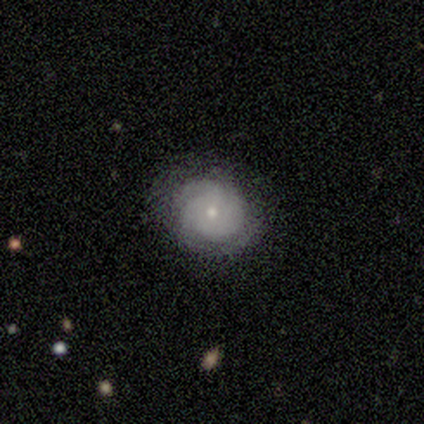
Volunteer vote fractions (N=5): Smooth or featured?
  - smooth: 40% * (tied)
  - featured or disk: 40% * (tied)
  - star or artifact: 20%
How rounded?
  - round: 50% * (tied)
  - in between: 50% * (tied)
  - cigar-shaped: 0%
Merging?
  - none: 75% *
  - minor disturbance: 25%
  - major disturbance: 0%
  - merger: 0%